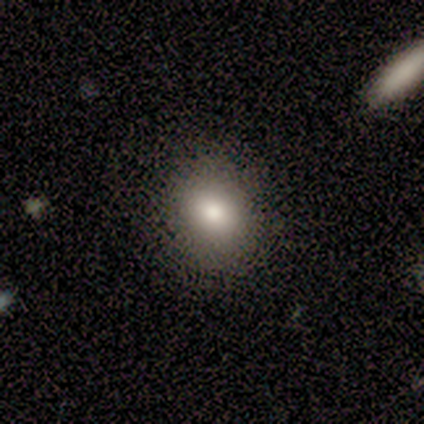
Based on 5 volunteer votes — smooth-or-featured: smooth: 80% | featured or disk: 20% | star or artifact: 0%
  how-rounded: round: 75% | in between: 25% | cigar-shaped: 0%
  merging: none: 60% | minor disturbance: 20% | merger: 20% | major disturbance: 0%